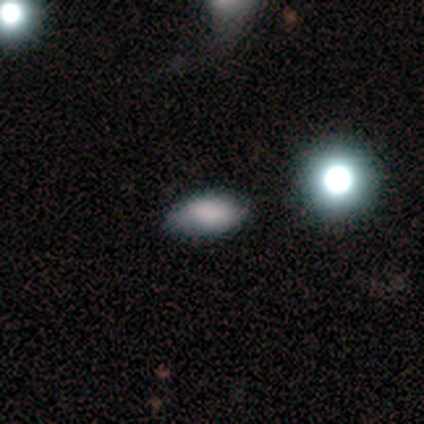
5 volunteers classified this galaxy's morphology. Smooth or featured: smooth — 100%
How rounded: in between — 100%
Merging: none — 80% (minor disturbance — 20%)